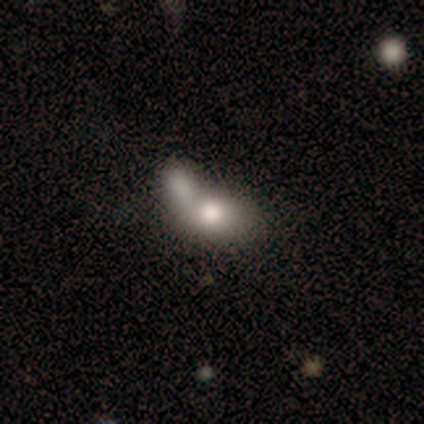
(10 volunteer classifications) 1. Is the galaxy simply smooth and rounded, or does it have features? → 70% smooth, 20% featured or disk, 10% star or artifact.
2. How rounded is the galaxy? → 86% in between, 14% round, 0% cigar-shaped.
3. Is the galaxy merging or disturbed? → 67% merger, 22% none, 11% major disturbance, 0% minor disturbance.